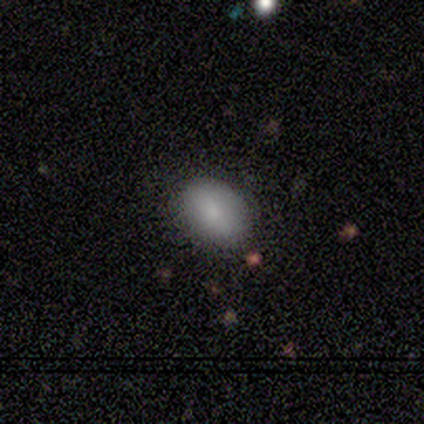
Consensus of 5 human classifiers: A smooth galaxy with no disk features (100%) that is in between round and cigar-shaped (100%).

Vote fractions:
- Smooth or featured? smooth: 100% / featured or disk: 0% / star or artifact: 0%
- How rounded? in between: 100% / round: 0% / cigar-shaped: 0%
- Merging? none: 100% / minor disturbance: 0% / major disturbance: 0% / merger: 0%